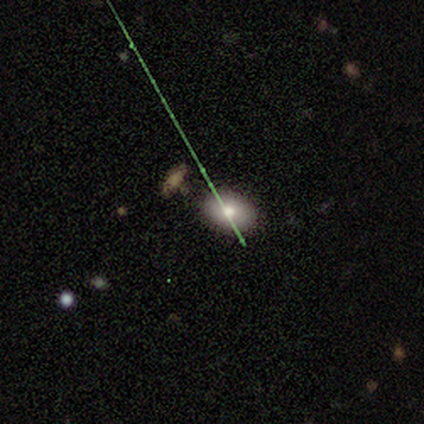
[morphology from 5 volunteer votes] smooth_or_featured: smooth (p=0.60) [alt: featured or disk p=0.20]
how_rounded: in between (p=0.67) [alt: round p=0.33]
merging: none (p=1.00)